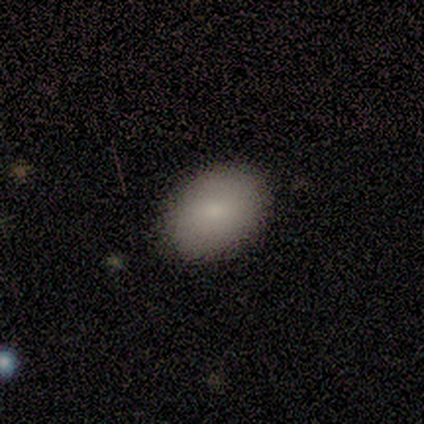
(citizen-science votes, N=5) Overall: smooth (100%). How rounded: in between (100%). Merging: none (80%).